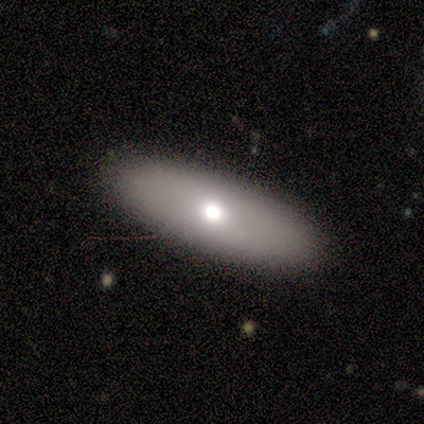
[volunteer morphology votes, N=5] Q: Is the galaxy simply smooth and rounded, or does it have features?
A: smooth — 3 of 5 (60%).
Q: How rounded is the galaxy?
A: in between — 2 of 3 (67%).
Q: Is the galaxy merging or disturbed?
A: none — 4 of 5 (80%).